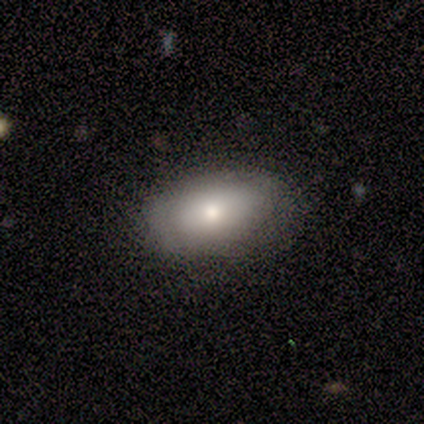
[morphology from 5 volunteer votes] Smooth or featured?
  - smooth: 60% *
  - featured or disk: 20%
  - star or artifact: 20%
How rounded?
  - in between: 100% *
  - round: 0%
  - cigar-shaped: 0%
Merging?
  - none: 50% * (tied)
  - minor disturbance: 50% * (tied)
  - major disturbance: 0%
  - merger: 0%